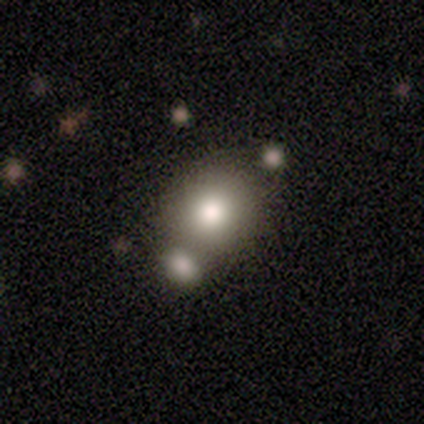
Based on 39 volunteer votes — smooth 90%, featured or disk 5%, star or artifact 5%. Down the decision tree: how rounded — round (63%); merging — none (51%).